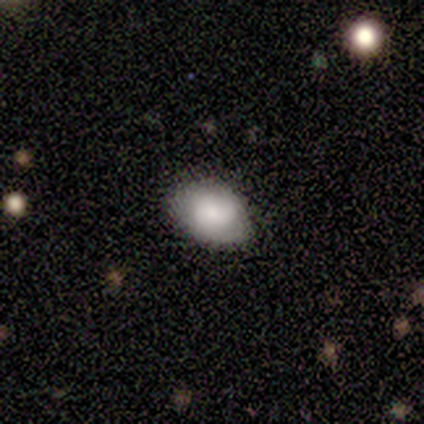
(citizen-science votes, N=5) Overall: smooth (80%). How rounded: in between (75%). Merging: none (75%).